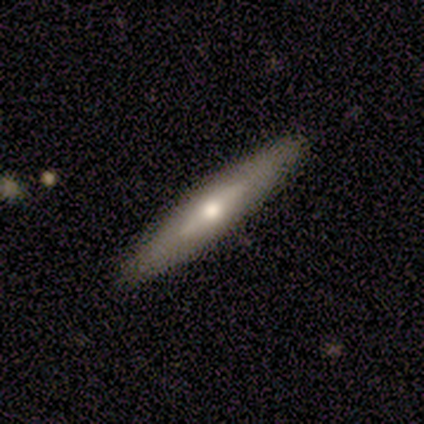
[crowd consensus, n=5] A smooth galaxy with no disk features (40%, tied with featured or disk) that is cigar-shaped (100%).

Vote fractions:
- Smooth or featured? smooth: 40% (tied) / featured or disk: 40% (tied) / star or artifact: 20%
- How rounded? cigar-shaped: 100% / round: 0% / in between: 0%
- Merging? none: 100% / minor disturbance: 0% / major disturbance: 0% / merger: 0%